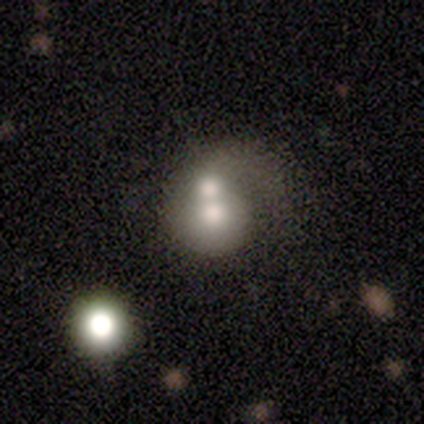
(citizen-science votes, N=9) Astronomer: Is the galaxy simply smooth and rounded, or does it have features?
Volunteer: featured or disk — 67%.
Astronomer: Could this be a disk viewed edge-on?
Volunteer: no — 100%.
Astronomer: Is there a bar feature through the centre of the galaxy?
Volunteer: no — 100%.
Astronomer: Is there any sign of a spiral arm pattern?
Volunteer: yes — 50%, tied with no at 50%.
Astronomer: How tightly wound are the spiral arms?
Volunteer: loose — 67%.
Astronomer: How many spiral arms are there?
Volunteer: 1 — 100%.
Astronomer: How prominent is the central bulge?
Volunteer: moderate — 67%.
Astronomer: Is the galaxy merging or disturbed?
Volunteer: merger — 67%.